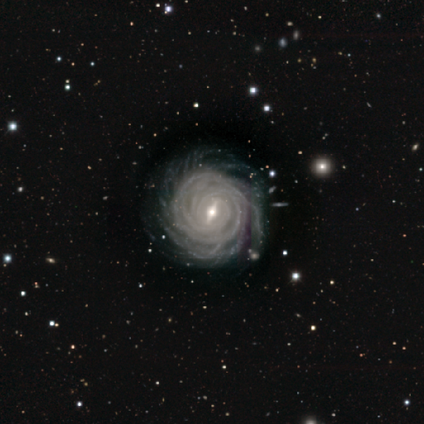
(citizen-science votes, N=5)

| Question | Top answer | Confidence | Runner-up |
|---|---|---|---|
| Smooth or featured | featured or disk | 100% | — |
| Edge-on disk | no | 100% | — |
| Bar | strong | 60% | weak (40%) |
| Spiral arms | yes | 100% | — |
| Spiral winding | tight | 100% | — |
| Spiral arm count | more than 4 | 100% | — |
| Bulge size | small | 60% | moderate (40%) |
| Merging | none | 40% | tied: minor disturbance (40%) |